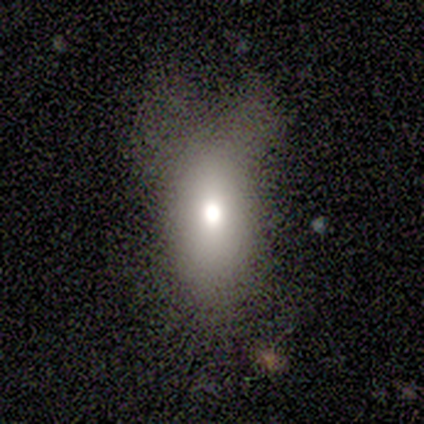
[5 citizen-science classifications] A smooth galaxy with no disk features (100%) that is in between round and cigar-shaped (100%). Merging: none (40%).